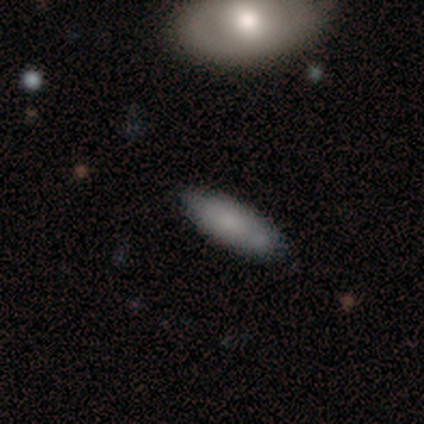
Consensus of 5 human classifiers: smooth-or-featured: smooth: 80% | featured or disk: 20% | star or artifact: 0%
  how-rounded: in between: 50% (tied) | cigar-shaped: 50% (tied) | round: 0%
  merging: none: 80% | minor disturbance: 20% | major disturbance: 0% | merger: 0%